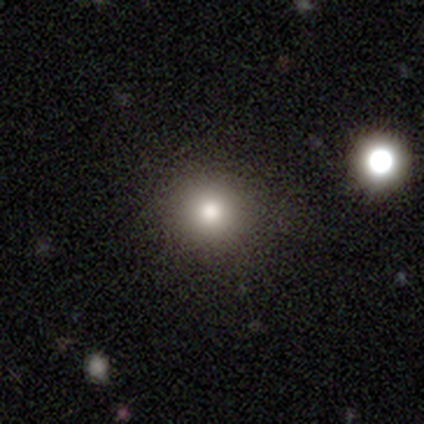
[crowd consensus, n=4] This appears to be a smooth galaxy with no disk features (50%, tied with star or artifact) that is round (100%). Merging: none (100%).